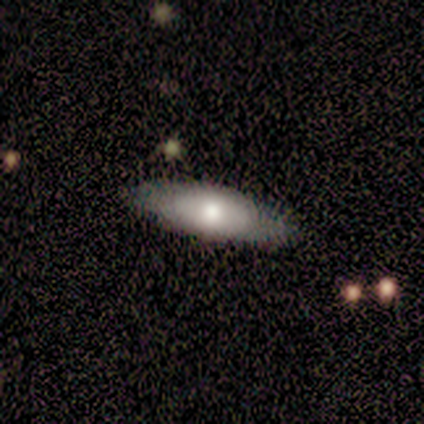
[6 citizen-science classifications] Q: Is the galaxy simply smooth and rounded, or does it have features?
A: smooth — 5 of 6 (83%).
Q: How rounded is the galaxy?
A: in between — 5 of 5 (100%).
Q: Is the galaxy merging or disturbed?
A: none — 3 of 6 (50%).